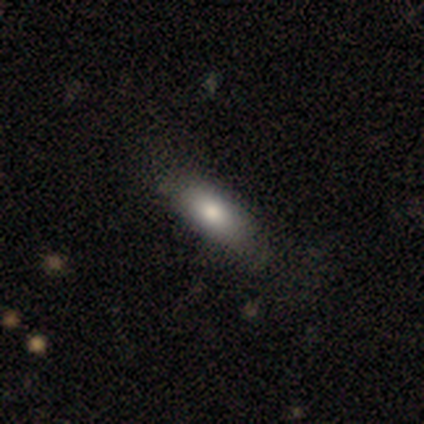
A smooth galaxy with no disk features (50%, tied with featured or disk) that is in between round and cigar-shaped (100%). Merging: minor disturbance (75%).